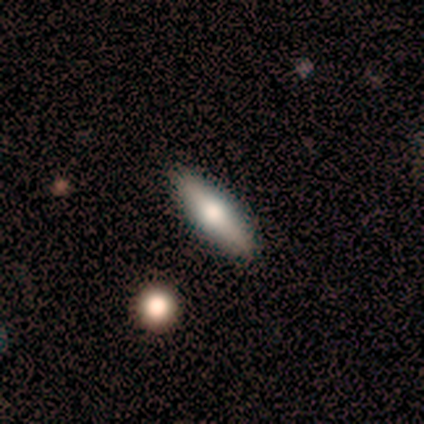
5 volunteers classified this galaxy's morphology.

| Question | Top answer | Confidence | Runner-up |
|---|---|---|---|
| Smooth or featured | smooth | 80% | featured or disk (20%) |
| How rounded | cigar-shaped | 75% | in between (25%) |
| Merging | none | 80% | minor disturbance (20%) |